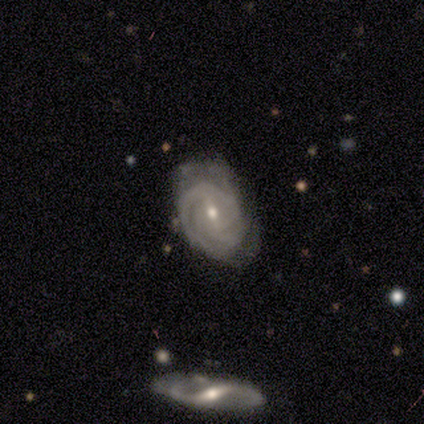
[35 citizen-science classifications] This is clearly a featured or disk galaxy (91%). It is clearly not viewed edge-on (100%). Bar: likely weak (66%). Spiral arm pattern: clearly yes (94%). Spiral arm count: marginally can't tell (40%). Spiral winding: likely tight (63%). Central bulge: possibly small (59%). Merging: possibly none (57%).